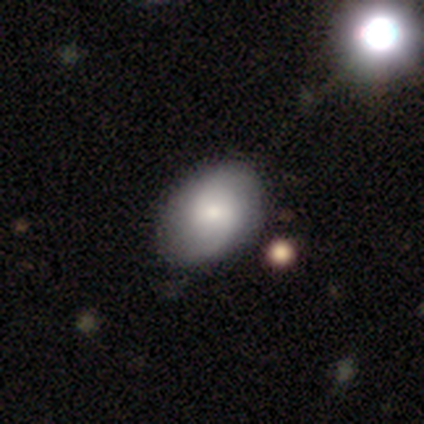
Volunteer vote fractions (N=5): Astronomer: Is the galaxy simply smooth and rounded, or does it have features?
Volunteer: smooth — 80%.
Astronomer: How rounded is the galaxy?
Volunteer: in between — 75%.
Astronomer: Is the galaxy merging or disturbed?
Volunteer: none — 80%.